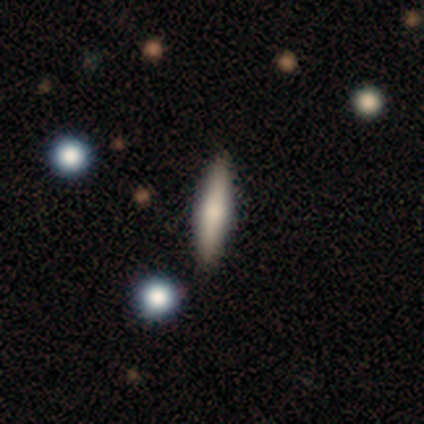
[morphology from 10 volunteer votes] Smooth or featured: smooth — 80% (featured or disk — 20%)
How rounded: cigar-shaped — 88% (in between — 12%)
Merging: none — 100%